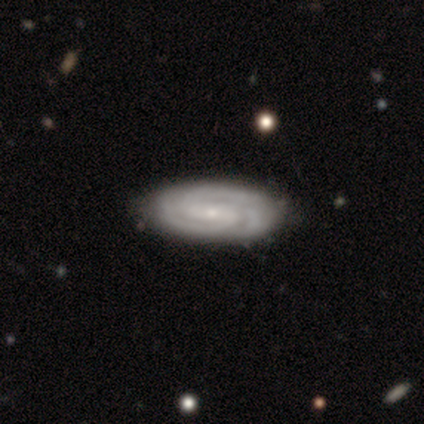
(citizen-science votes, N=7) Q: Smooth or featured?
A: featured or disk (86%); runner-up: smooth (14%)
Q: Edge-on disk?
A: no (100%)
Q: Bar?
A: strong (50%); runner-up: no (33%)
Q: Spiral arms?
A: yes (100%)
Q: Spiral winding?
A: tight (50%); runner-up: loose (33%)
Q: Spiral arm count?
A: 3 (67%); runner-up: can't tell (33%)
Q: Bulge size?
A: small (67%); runner-up: moderate (17%)
Q: Merging?
A: none (86%); runner-up: minor disturbance (14%)